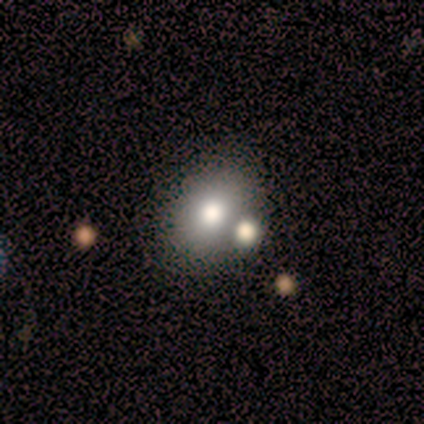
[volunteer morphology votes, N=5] A smooth galaxy with no disk features (100%) that is round (60%). Merging: none (40%, tied with merger).